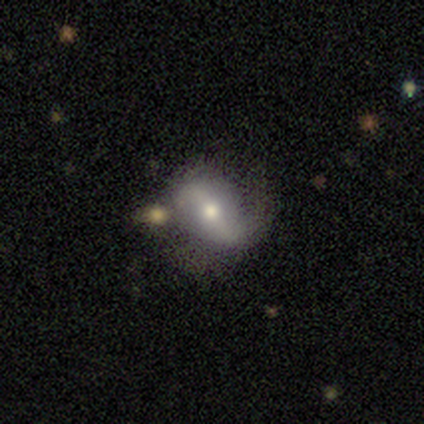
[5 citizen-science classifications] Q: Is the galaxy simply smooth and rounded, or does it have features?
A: featured or disk — 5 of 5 (100%).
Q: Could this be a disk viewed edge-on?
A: no — 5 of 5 (100%).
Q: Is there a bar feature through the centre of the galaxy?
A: strong — 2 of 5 (40%, tied with weak).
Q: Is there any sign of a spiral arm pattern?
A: no — 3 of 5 (60%).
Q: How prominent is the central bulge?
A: small — 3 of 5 (60%).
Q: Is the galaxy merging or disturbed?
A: minor disturbance — 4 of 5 (80%).